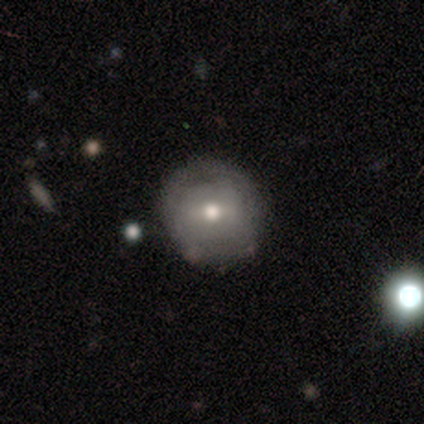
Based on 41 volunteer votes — Morphology: type=featured or disk (51%); edge-on=no (100%); bar=weak (71%); spiral arms=no (67%); bulge=moderate (81%); merging=none (69%).